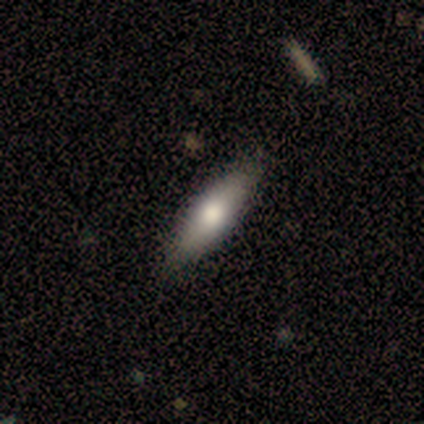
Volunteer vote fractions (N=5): This is clearly a smooth galaxy (80%). How rounded: clearly in between (100%). Merging: clearly none (80%).